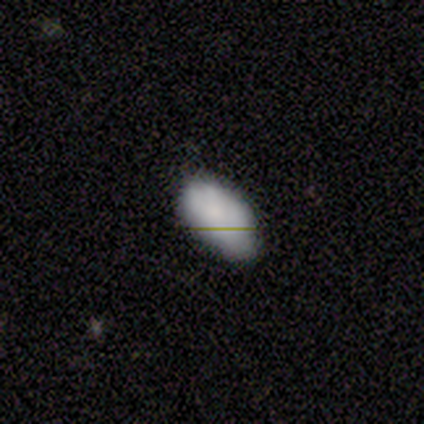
This appears to be a smooth galaxy with no disk features (100%) that is in between round and cigar-shaped (100%). Merging: none (100%).